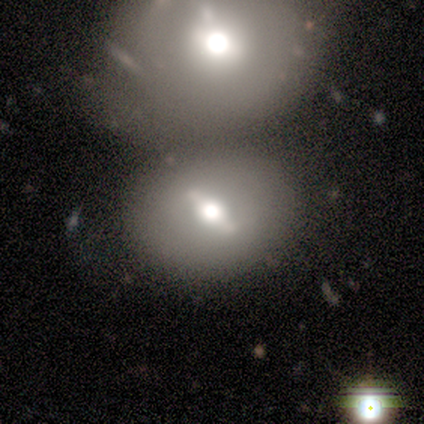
Q: Smooth or featured?
A: featured or disk (40%); tied with: star or artifact (40%)
Q: Edge-on disk?
A: no (100%)
Q: Bar?
A: weak (100%)
Q: Spiral arms?
A: yes (50%); tied with: no (50%)
Q: Spiral winding?
A: tight (100%)
Q: Spiral arm count?
A: 2 (100%)
Q: Bulge size?
A: large (50%); tied with: moderate (50%)
Q: Merging?
A: none (33%); tied with: major disturbance (33%); merger (33%)